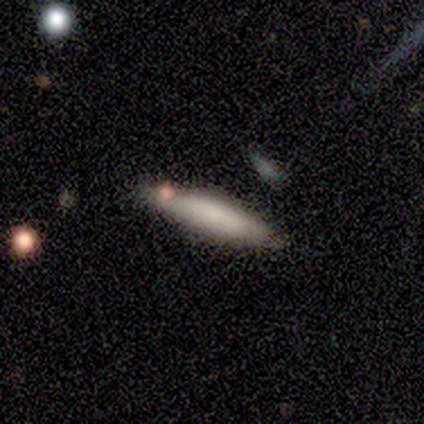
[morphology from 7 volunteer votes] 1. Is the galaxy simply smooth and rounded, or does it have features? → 57% featured or disk, 43% smooth, 0% star or artifact.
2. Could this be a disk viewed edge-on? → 100% yes, 0% no.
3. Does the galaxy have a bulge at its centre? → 50% none, 25% boxy, 25% rounded.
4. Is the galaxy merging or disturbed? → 57% none, 43% minor disturbance, 0% major disturbance, 0% merger.